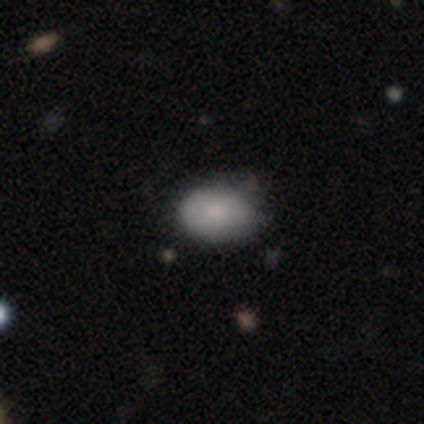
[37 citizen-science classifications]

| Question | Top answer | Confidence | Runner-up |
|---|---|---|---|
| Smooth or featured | smooth | 81% | featured or disk (11%) |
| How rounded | in between | 83% | round (17%) |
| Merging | none | 71% | minor disturbance (26%) |